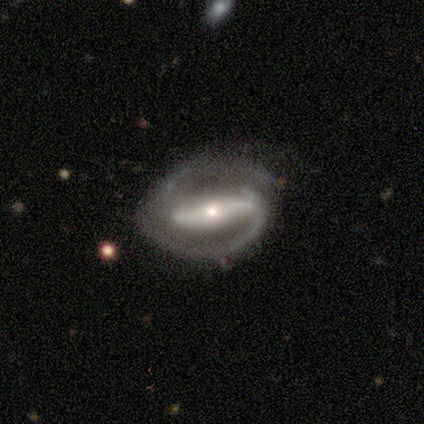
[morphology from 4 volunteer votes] type=featured or disk (100%); edge-on=no (100%); bar=strong (50%, tied with no); spiral arms=yes (75%); winding=tight (33%, tied with medium and loose); arm count=2 (100%); bulge=small (75%); merging=none (100%).